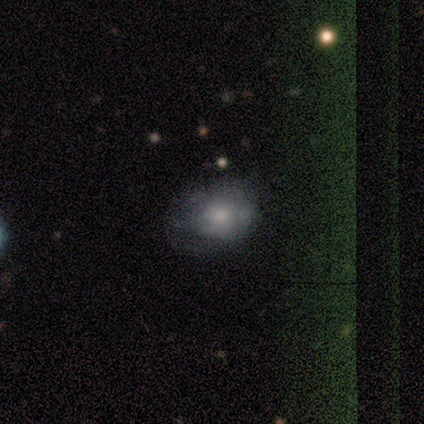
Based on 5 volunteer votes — Smooth or featured: star or artifact — 60% (smooth — 20%)